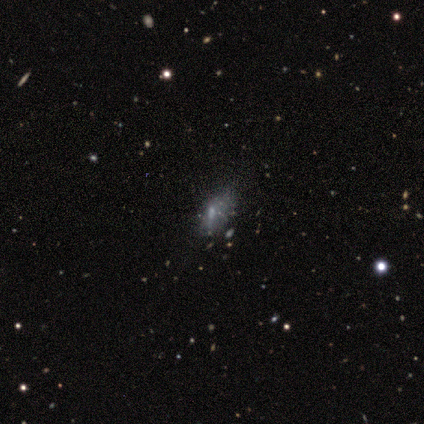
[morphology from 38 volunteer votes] This is marginally a featured or disk galaxy (34%, tied with star or artifact). It is clearly not viewed edge-on (100%). Bar: likely no (69%). Spiral arm pattern: clearly no (100%). Central bulge: possibly small (54%). Merging: possibly minor disturbance (48%).